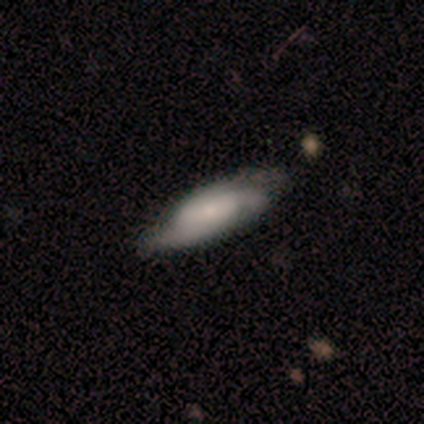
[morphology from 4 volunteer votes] Q: Smooth or featured?
A: smooth (75%); runner-up: featured or disk (25%)
Q: How rounded?
A: in between (67%); runner-up: cigar-shaped (33%)
Q: Merging?
A: none (100%)